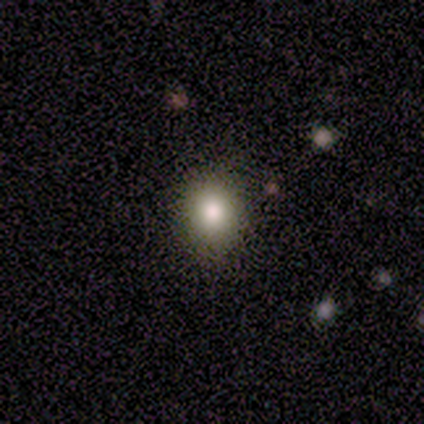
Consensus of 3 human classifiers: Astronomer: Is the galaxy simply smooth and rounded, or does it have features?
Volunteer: smooth — 67%.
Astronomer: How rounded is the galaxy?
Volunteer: round — 50%, tied with in between at 50%.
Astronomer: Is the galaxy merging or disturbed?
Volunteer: none — 50%, tied with major disturbance at 50%.